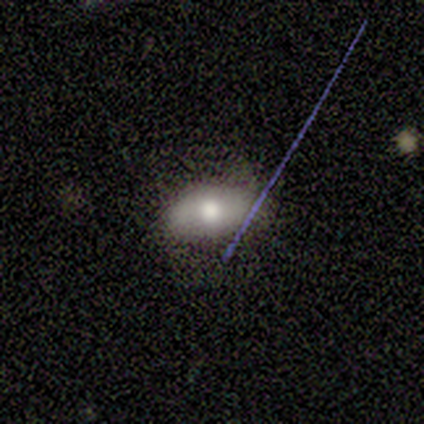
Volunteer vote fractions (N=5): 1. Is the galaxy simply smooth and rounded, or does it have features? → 80% smooth, 20% featured or disk, 0% star or artifact.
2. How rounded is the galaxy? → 75% in between, 25% round, 0% cigar-shaped.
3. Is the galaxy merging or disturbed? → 80% none, 20% minor disturbance, 0% major disturbance, 0% merger.